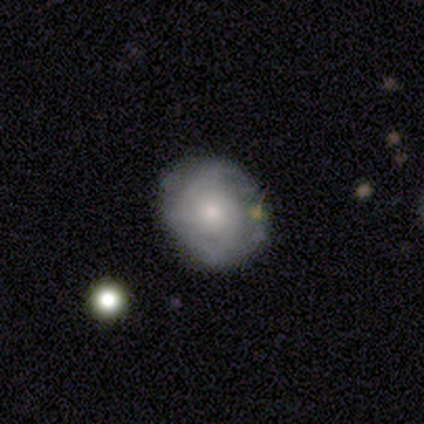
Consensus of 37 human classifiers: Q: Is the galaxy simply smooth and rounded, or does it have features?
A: featured or disk — 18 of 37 (49%).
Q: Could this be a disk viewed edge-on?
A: no — 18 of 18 (100%).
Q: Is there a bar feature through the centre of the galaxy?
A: no — 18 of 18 (100%).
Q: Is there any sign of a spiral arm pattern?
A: yes — 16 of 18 (89%).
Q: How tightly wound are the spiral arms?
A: tight — 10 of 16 (62%).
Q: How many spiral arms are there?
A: can't tell — 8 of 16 (50%).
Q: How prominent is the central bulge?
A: moderate — 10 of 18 (56%).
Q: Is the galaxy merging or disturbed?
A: none — 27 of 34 (79%).